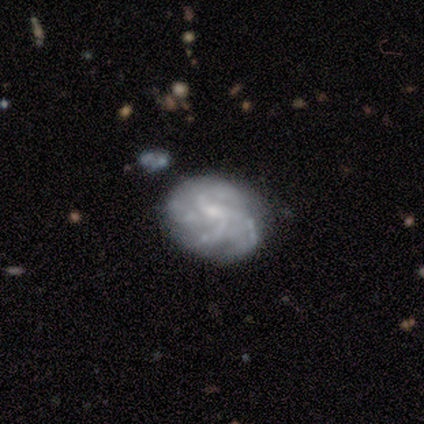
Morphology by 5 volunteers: Q: Smooth or featured?
A: featured or disk (60%); runner-up: smooth (40%)
Q: Edge-on disk?
A: no (100%)
Q: Bar?
A: weak (67%); runner-up: no (33%)
Q: Spiral arms?
A: yes (100%)
Q: Spiral winding?
A: medium (100%)
Q: Spiral arm count?
A: 4 (67%); runner-up: 2 (33%)
Q: Bulge size?
A: small (100%)
Q: Merging?
A: none (60%); runner-up: minor disturbance (20%)